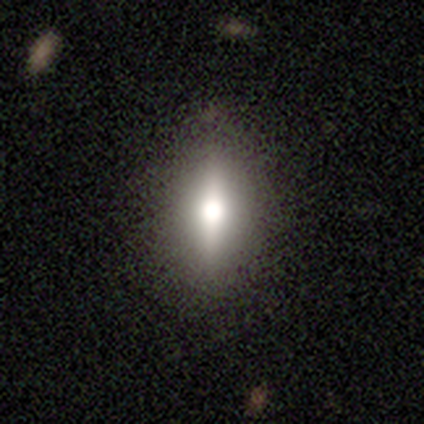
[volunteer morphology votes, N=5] Q: Smooth or featured?
A: smooth (60%); runner-up: featured or disk (40%)
Q: How rounded?
A: in between (100%)
Q: Merging?
A: none (80%); runner-up: minor disturbance (20%)